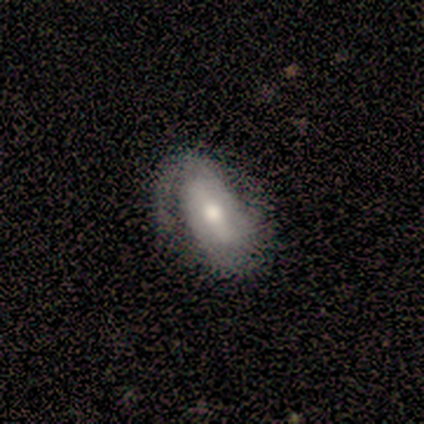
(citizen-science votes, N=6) A featured or disk galaxy (100%) with a strong bar (67%), 1 (50%) medium (67%) spiral arms (100%) and a moderate central bulge (67%).

Vote fractions:
- Smooth or featured? featured or disk: 100% / smooth: 0% / star or artifact: 0%
- Edge-on disk? no: 100% / yes: 0%
- Bar? strong: 67% / weak: 33% / no: 0%
- Spiral arms? yes: 100% / no: 0%
- Spiral winding? medium: 67% / loose: 33% / tight: 0%
- Spiral arm count? 1: 50% / 2: 33% / 3: 17% / 4: 0% / more than 4: 0% / can't tell: 0%
- Bulge size? moderate: 67% / dominant: 17% / large: 17% / small: 0% / none: 0%
- Merging? none: 67% / minor disturbance: 17% / major disturbance: 17% / merger: 0%